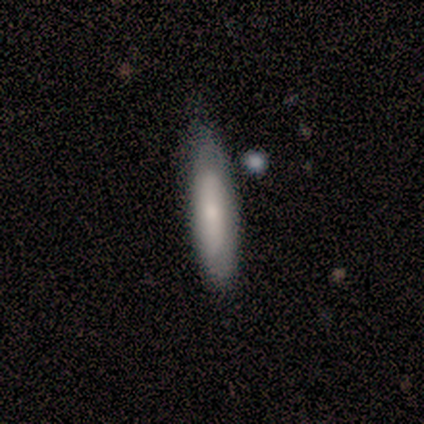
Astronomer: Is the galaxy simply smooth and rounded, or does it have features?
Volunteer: smooth — 60% (runner-up: featured or disk, 40%).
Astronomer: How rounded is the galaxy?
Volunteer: cigar-shaped — 100%.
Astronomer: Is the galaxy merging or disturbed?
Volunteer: none — 60% (runner-up: minor disturbance, 40%).